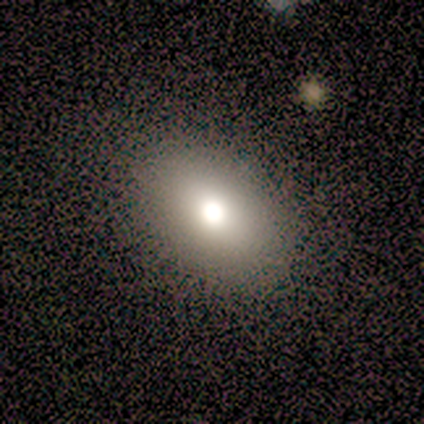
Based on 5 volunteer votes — Smooth or featured?
  - smooth: 80% *
  - featured or disk: 20%
  - star or artifact: 0%
How rounded?
  - round: 50% * (tied)
  - in between: 50% * (tied)
  - cigar-shaped: 0%
Merging?
  - none: 80% *
  - minor disturbance: 20%
  - major disturbance: 0%
  - merger: 0%